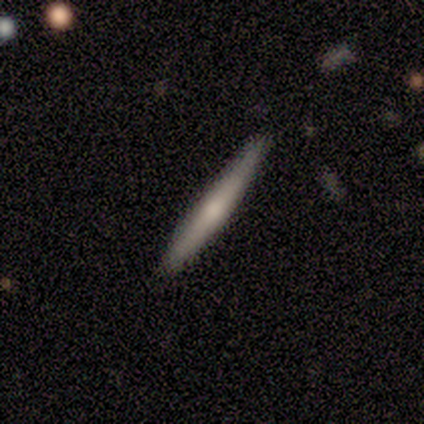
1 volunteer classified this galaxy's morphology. type=smooth (100%); roundness=cigar-shaped (100%); merging=none (100%).